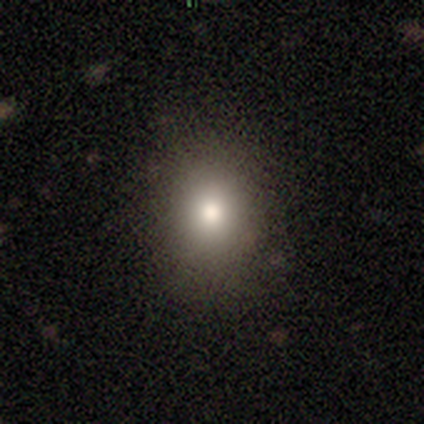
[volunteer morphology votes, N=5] smooth 80%, featured or disk 20%, star or artifact 0%. Down the decision tree: how rounded — round (75%); merging — none (100%).